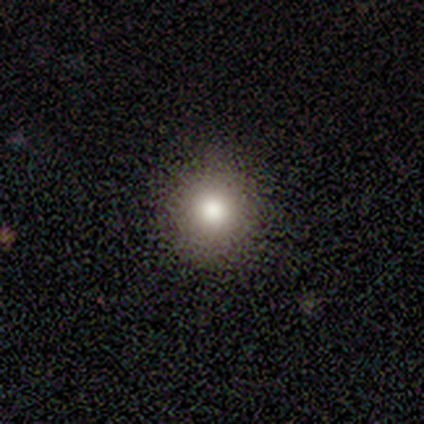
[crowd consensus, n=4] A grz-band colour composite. It shows a star or artifact, not a galaxy (50%).